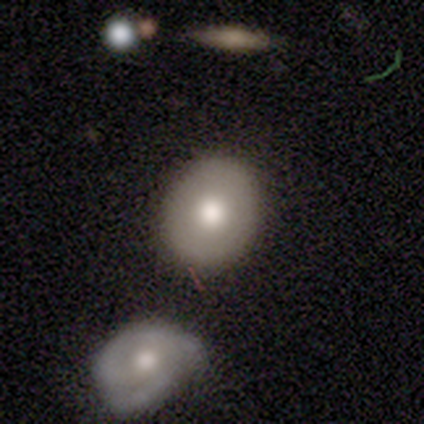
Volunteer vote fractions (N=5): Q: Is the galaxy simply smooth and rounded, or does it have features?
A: smooth — 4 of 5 (80%).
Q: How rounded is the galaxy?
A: in between — 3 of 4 (75%).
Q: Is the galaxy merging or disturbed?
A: none — 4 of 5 (80%).